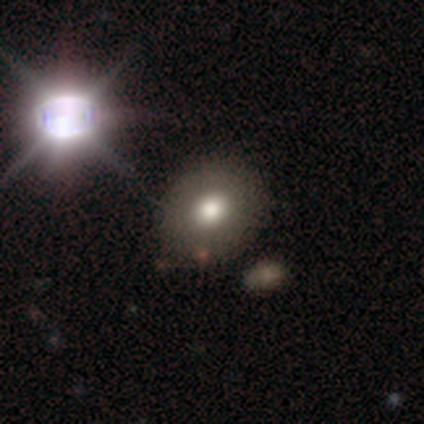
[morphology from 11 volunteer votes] Volunteers were most divided on "how rounded": round: 62%, in between: 38%, cigar-shaped: 0%. More confident: merging — none (89%); smooth or featured — smooth (73%).